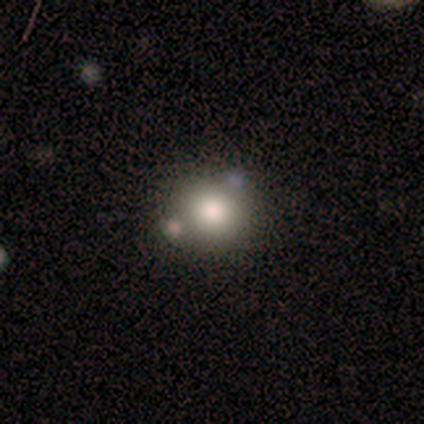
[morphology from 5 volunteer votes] A smooth galaxy with no disk features (80%) that is round (75%).

Vote fractions:
- Smooth or featured? smooth: 80% / featured or disk: 20% / star or artifact: 0%
- How rounded? round: 75% / in between: 25% / cigar-shaped: 0%
- Merging? none: 40% (tied) / minor disturbance: 40% (tied) / major disturbance: 20% / merger: 0%